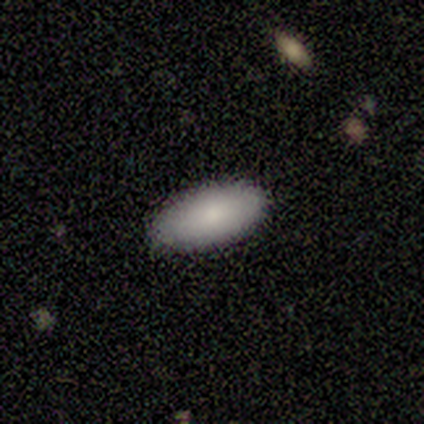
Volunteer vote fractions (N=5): Consensus on every question: smooth or featured — smooth (100%); how rounded — in between (100%); merging — none (100%).